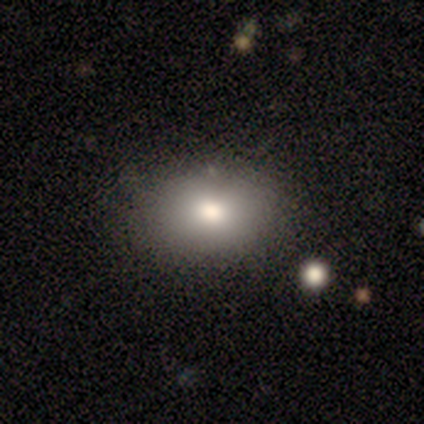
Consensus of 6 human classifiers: Q: Smooth or featured?
A: smooth (100%)
Q: How rounded?
A: in between (83%); runner-up: round (17%)
Q: Merging?
A: none (83%); runner-up: minor disturbance (17%)